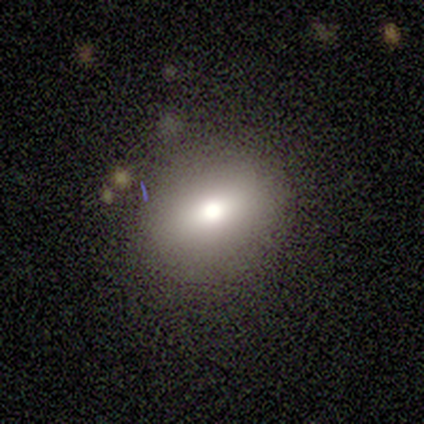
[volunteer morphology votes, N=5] Smooth or featured? star or artifact (60%)